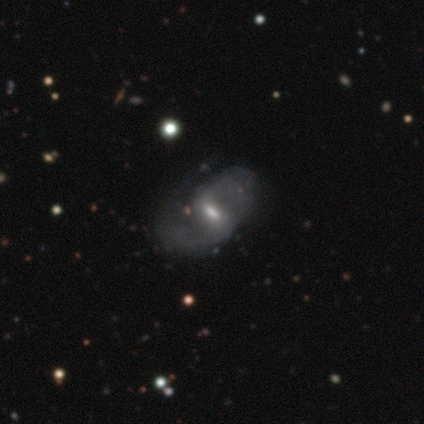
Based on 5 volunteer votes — This appears to be a featured or disk galaxy (80%) with a weak bar (100%), 2 (100%) loose (67%) spiral arms (75%) and a moderate central bulge (50%). Merging: none (60%).